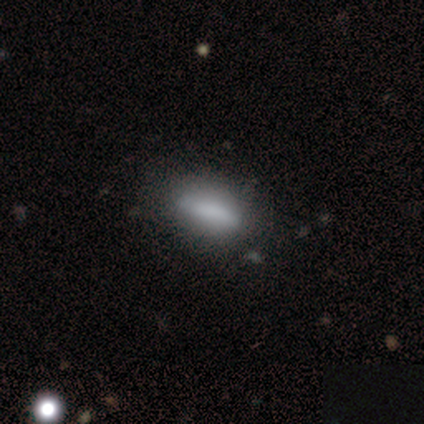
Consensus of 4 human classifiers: Volunteers were most divided on "smooth or featured": smooth: 75%, featured or disk: 25%, star or artifact: 0%. More confident: how rounded — cigar-shaped (100%); merging — none (100%).